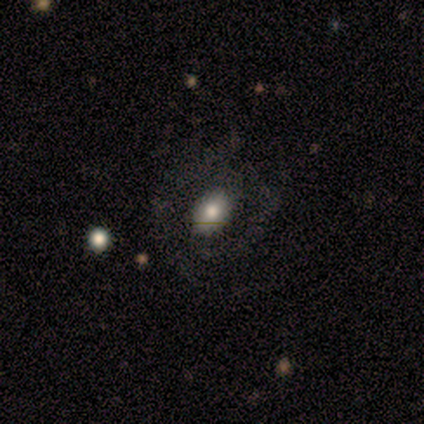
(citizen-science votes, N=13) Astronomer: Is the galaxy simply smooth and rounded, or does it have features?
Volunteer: featured or disk — 54% (runner-up: smooth, 46%).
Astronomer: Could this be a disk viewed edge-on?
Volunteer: no — 100%.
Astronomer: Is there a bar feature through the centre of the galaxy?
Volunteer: no — 57% (runner-up: weak, 43%).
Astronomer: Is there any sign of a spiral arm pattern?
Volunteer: yes — 71%.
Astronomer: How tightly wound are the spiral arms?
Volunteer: medium — 80%.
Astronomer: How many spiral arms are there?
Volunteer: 2 — 80%.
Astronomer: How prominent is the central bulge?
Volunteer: moderate — 43% (runner-up: large, 29%).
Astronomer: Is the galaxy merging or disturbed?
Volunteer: none — 46% (runner-up: major disturbance, 38%).